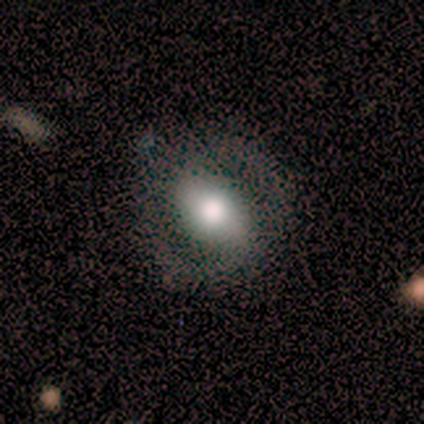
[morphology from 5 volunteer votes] A smooth galaxy with no disk features (80%) that is in between round and cigar-shaped (50%).

Vote fractions:
- Smooth or featured? smooth: 80% / featured or disk: 20% / star or artifact: 0%
- How rounded? in between: 50% / round: 25% / cigar-shaped: 25%
- Merging? none: 80% / minor disturbance: 20% / major disturbance: 0% / merger: 0%